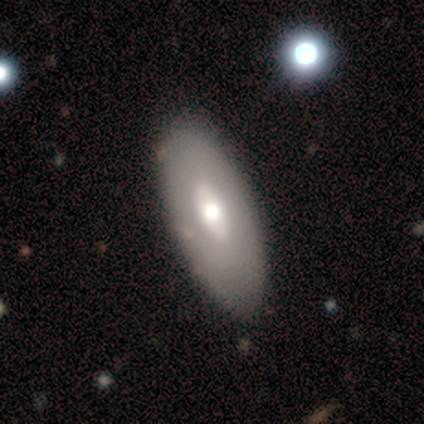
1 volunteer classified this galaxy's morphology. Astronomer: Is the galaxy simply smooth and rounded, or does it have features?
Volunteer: featured or disk — 100%.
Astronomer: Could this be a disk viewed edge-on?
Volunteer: no — 100%.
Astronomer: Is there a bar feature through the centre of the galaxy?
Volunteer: weak — 100%.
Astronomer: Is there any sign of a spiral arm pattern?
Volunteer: no — 100%.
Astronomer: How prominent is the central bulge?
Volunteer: moderate — 100%.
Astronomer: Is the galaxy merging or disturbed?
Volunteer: none — 100%.